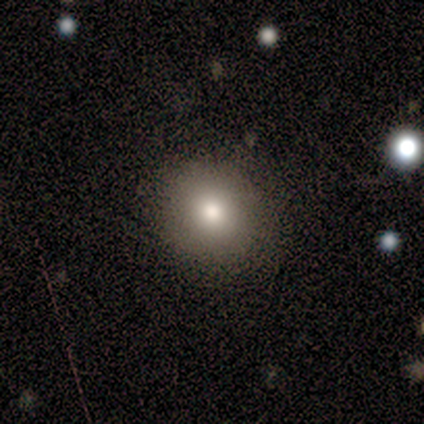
smooth_or_featured: star or artifact (p=0.60) [alt: smooth p=0.40]